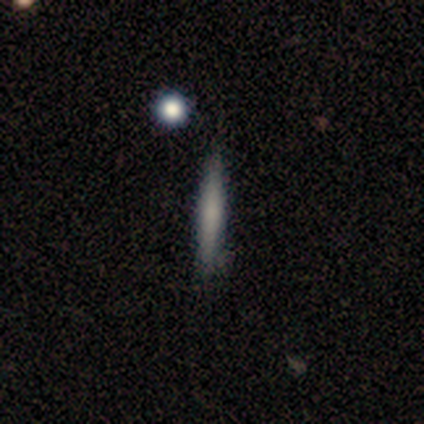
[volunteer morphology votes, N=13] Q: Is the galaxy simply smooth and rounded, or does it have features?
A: smooth — 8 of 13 (62%).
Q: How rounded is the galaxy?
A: cigar-shaped — 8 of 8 (100%).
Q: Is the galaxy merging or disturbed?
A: none — 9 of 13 (69%).